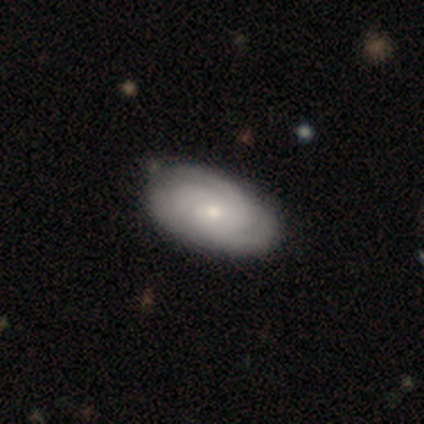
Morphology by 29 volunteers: featured or disk 55%, smooth 38%, star or artifact 7%. Down the decision tree: edge-on disk — no (100%); bar — no (81%); spiral arms — yes (88%); spiral arm count — 3 (43%); spiral winding — tight (64%); bulge size — small (56%); merging — none (81%).